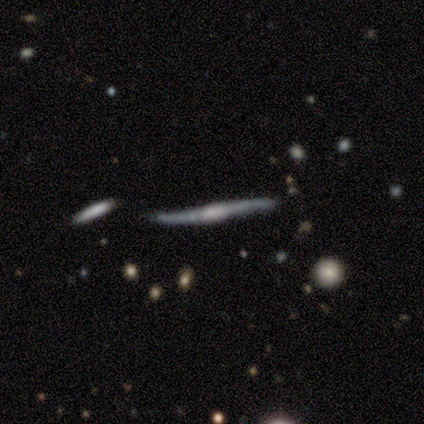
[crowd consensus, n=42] Smooth or featured?
  - featured or disk: 81% *
  - smooth: 14%
  - star or artifact: 5%
Edge-on disk?
  - yes: 94% *
  - no: 6%
Edge-on bulge?
  - boxy: 44% *
  - none: 28%
  - rounded: 28%
Merging?
  - none: 57% *
  - minor disturbance: 30%
  - merger: 10%
  - major disturbance: 2%